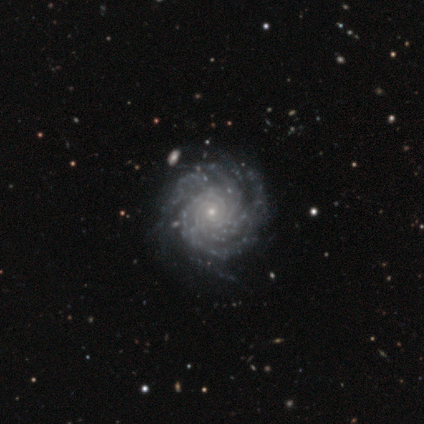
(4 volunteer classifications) Smooth or featured? 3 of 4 (75%) said featured or disk. Edge-on disk? 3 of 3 (100%) said no. Bar? 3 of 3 (100%) said no. Spiral arms? 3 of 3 (100%) said yes. Spiral winding? 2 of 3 (67%) said tight. Spiral arm count? 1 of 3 (33%, tied with more than 4 and can't tell) said 4. Bulge size? 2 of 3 (67%) said small. Merging? 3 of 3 (100%) said none.